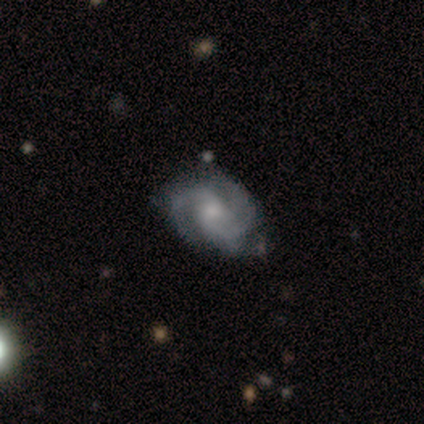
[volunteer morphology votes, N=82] Q: Smooth or featured?
A: featured or disk (88%); runner-up: smooth (6%)
Q: Edge-on disk?
A: no (100%)
Q: Bar?
A: no (68%); runner-up: weak (29%)
Q: Spiral arms?
A: yes (99%); runner-up: no (1%)
Q: Spiral winding?
A: tight (42%); tied with: medium (42%)
Q: Spiral arm count?
A: 2 (54%); runner-up: 3 (35%)
Q: Bulge size?
A: moderate (46%); runner-up: small (43%)
Q: Merging?
A: none (42%); runner-up: minor disturbance (10%)